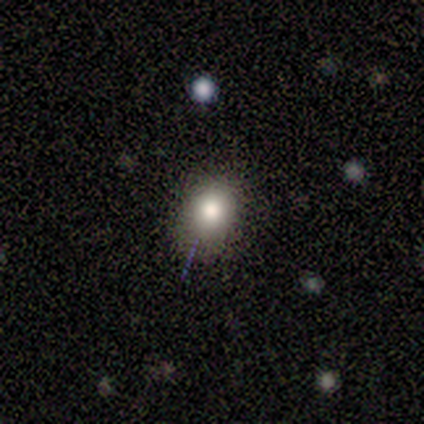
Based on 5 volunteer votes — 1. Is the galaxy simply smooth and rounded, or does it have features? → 60% smooth, 20% featured or disk, 20% star or artifact.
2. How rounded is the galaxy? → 67% in between, 33% round, 0% cigar-shaped.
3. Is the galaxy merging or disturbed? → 50% none, 25% minor disturbance, 25% major disturbance, 0% merger.